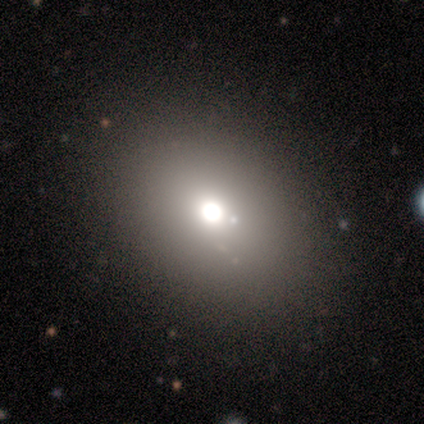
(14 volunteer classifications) This is likely a smooth galaxy (64%). How rounded: possibly in between (56%). Merging: likely none (77%).